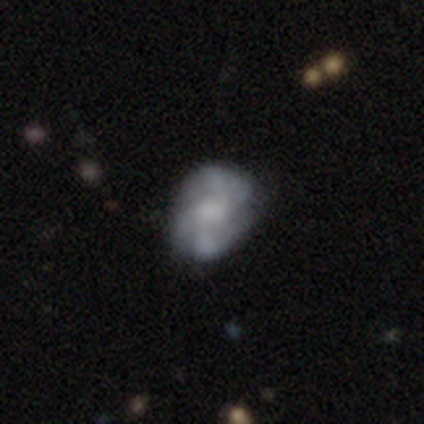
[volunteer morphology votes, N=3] A featured or disk galaxy (100%) with a weak bar (67%), 2 (33%, tied with 4 and can't tell) tight (67%) spiral arms (100%) and a large central bulge (67%). Merging: none (67%).